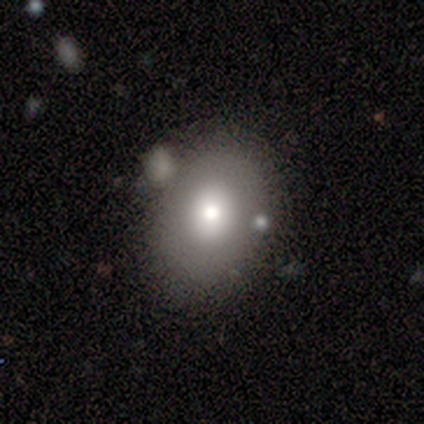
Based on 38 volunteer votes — A smooth galaxy with no disk features (68%) that is in between round and cigar-shaped (65%). Merging: none (69%).